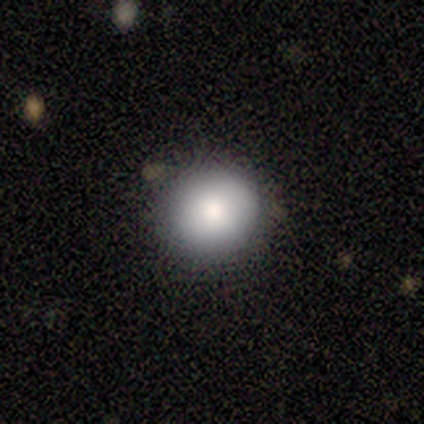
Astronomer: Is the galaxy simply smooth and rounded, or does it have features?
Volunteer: smooth — 100%.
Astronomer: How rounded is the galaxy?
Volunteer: round — 80%.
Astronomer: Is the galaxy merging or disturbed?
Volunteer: none — 80%.